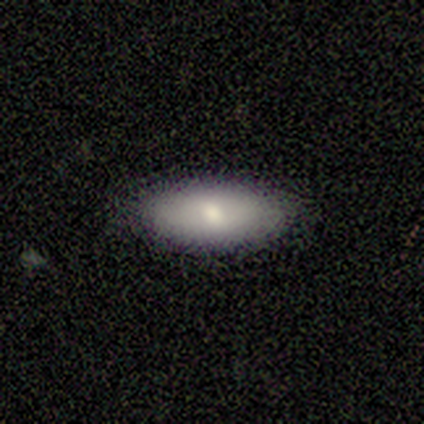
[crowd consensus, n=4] Overall: smooth (100%). How rounded: in between (75%). Merging: none (100%).